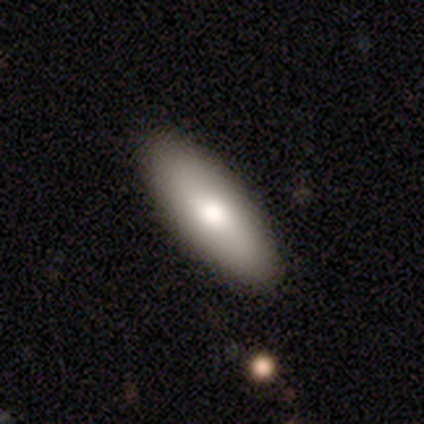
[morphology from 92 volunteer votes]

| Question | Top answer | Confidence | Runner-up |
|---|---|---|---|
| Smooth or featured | smooth | 70% | featured or disk (27%) |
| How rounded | in between | 53% | cigar-shaped (47%) |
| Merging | none | 93% | minor disturbance (3%) |